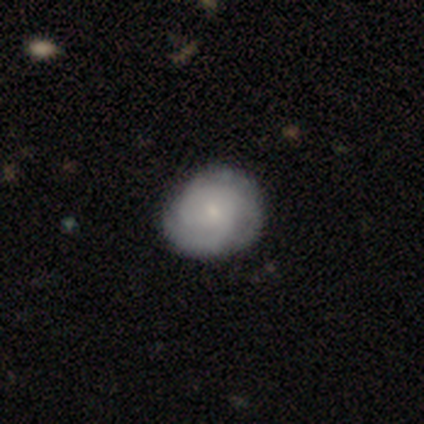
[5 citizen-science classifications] smooth-or-featured: smooth: 40% (tied) | featured or disk: 40% (tied) | star or artifact: 20%
  how-rounded: round: 100% | in between: 0% | cigar-shaped: 0%
  merging: none: 75% | minor disturbance: 25% | major disturbance: 0% | merger: 0%